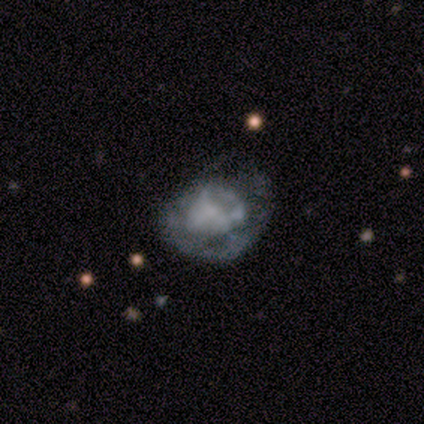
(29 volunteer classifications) Volunteers were most divided on "merging": none: 44%, minor disturbance: 28%, major disturbance: 28%, merger: 0%. More confident: edge-on disk — no (100%); bar — no (90%); spiral arms — no (85%); smooth or featured — featured or disk (69%); bulge size — none (50%).